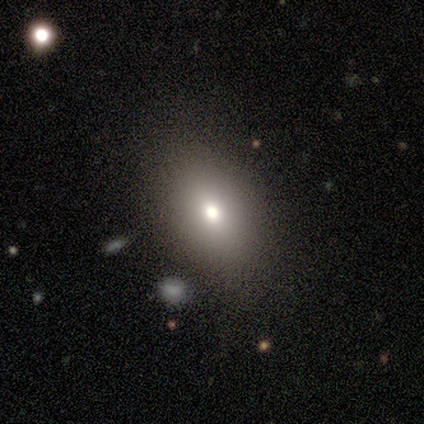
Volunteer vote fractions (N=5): Q: Smooth or featured?
A: smooth (40%); tied with: featured or disk (40%)
Q: How rounded?
A: in between (100%)
Q: Merging?
A: none (100%)